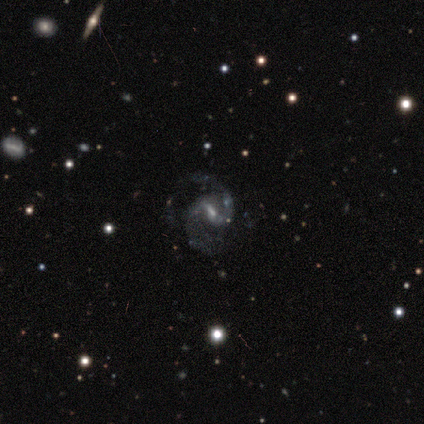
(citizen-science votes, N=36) Q: Smooth or featured?
A: featured or disk (94%); runner-up: smooth (6%)
Q: Edge-on disk?
A: no (94%); runner-up: yes (6%)
Q: Bar?
A: weak (56%); runner-up: strong (34%)
Q: Spiral arms?
A: yes (97%); runner-up: no (3%)
Q: Spiral winding?
A: medium (58%); runner-up: loose (32%)
Q: Spiral arm count?
A: 2 (94%); runner-up: 3 (6%)
Q: Bulge size?
A: small (72%); runner-up: moderate (16%)
Q: Merging?
A: none (67%); runner-up: major disturbance (19%)